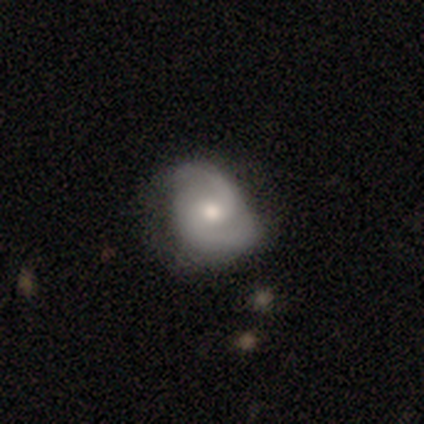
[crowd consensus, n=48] Smooth or featured? featured or disk (75%)
Edge-on disk? no (100%)
Bar? no (67%)
Spiral arms? yes (97%)
Spiral winding? medium (51%)
Spiral arm count? 2 (97%)
Bulge size? moderate (64%)
Merging? none (69%)